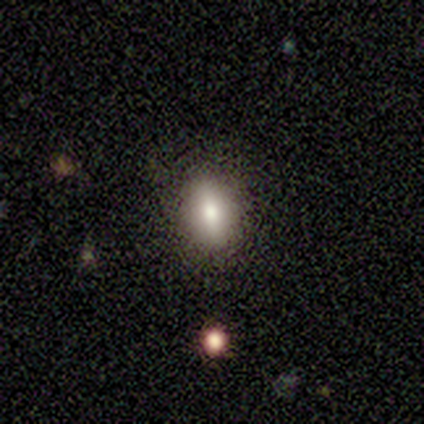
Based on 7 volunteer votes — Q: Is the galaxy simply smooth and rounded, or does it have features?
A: smooth — 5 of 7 (71%).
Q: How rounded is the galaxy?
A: in between — 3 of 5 (60%).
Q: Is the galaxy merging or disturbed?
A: none — 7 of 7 (100%).